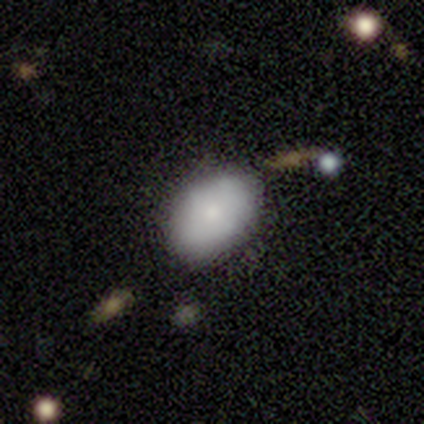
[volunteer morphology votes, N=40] Smooth or featured: smooth — 75% (featured or disk — 18%)
How rounded: in between — 80% (round — 20%)
Merging: none — 73% (minor disturbance — 16%)